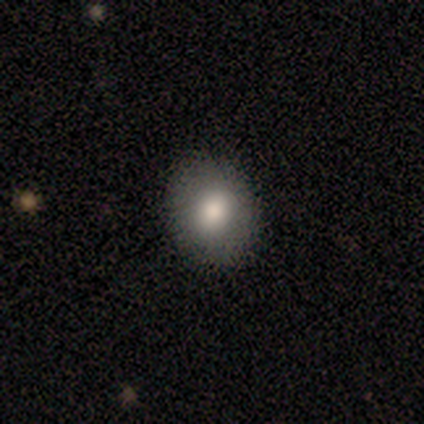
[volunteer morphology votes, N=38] smooth_or_featured: smooth (p=0.82) [alt: featured or disk p=0.13]
how_rounded: round (p=0.55) [alt: in between p=0.45]
merging: none (p=0.92) [alt: minor disturbance p=0.08]